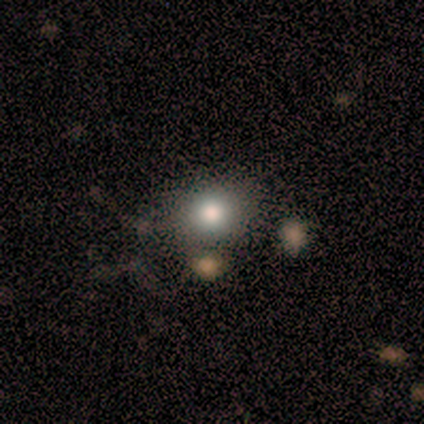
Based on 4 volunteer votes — smooth_or_featured: smooth (p=0.50) [alt: featured or disk p=0.25]
how_rounded: round (p=0.50) [tied with: in between p=0.50]
merging: none (p=0.67) [alt: major disturbance p=0.33]